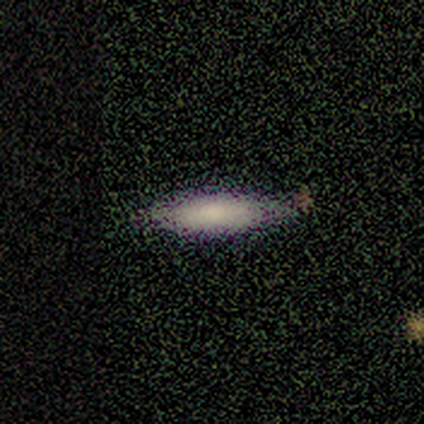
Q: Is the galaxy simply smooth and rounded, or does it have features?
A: smooth — 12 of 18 (67%).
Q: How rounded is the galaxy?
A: in between — 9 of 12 (75%).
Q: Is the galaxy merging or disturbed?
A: none — 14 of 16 (88%).